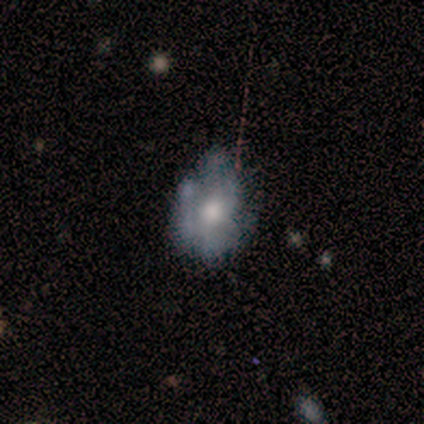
Smooth or featured? featured or disk (80%)
Edge-on disk? no (100%)
Bar? no (100%)
Spiral arms? no (100%)
Bulge size? moderate (50%)
Merging? none (25%, tied with minor disturbance, major disturbance and merger)